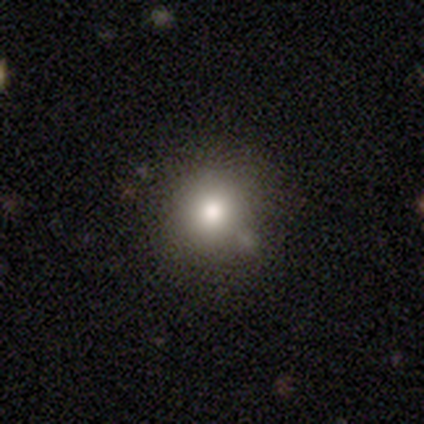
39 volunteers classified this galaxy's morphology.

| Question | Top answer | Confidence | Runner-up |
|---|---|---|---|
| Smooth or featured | smooth | 77% | star or artifact (15%) |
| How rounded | round | 93% | in between (7%) |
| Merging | none | 70% | minor disturbance (18%) |